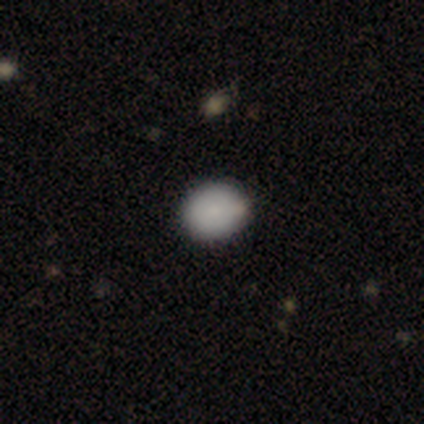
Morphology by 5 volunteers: A smooth galaxy with no disk features (80%) that is in between round and cigar-shaped (75%). Merging: none (75%).